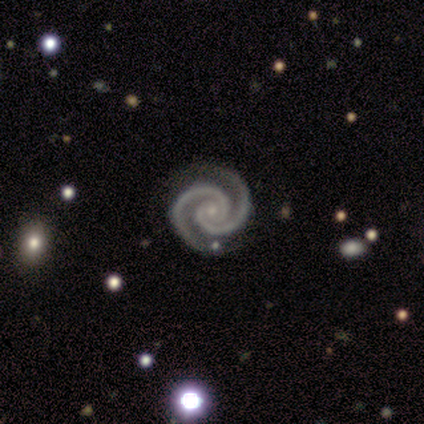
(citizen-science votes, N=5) Smooth or featured? 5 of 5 (100%) said featured or disk. Edge-on disk? 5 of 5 (100%) said no. Bar? 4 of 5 (80%) said no. Spiral arms? 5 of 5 (100%) said yes. Spiral winding? 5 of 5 (100%) said tight. Spiral arm count? 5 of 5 (100%) said 2. Bulge size? 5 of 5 (100%) said small. Merging? 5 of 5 (100%) said none.